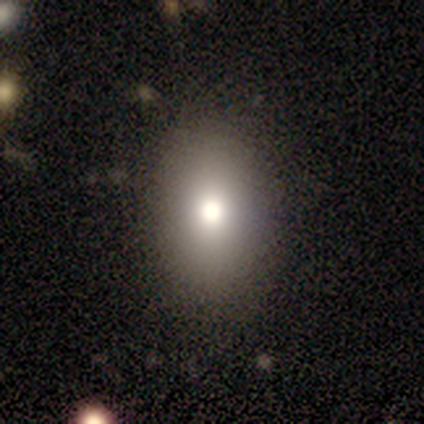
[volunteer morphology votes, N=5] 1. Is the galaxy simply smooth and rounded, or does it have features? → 80% smooth, 20% star or artifact, 0% featured or disk.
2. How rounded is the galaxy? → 75% in between, 25% round, 0% cigar-shaped.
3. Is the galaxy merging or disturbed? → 100% none, 0% minor disturbance, 0% major disturbance, 0% merger.